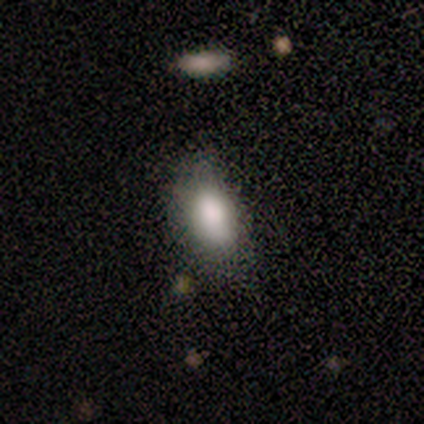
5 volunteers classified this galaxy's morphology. type=smooth (100%); roundness=in between (80%); merging=none (60%).